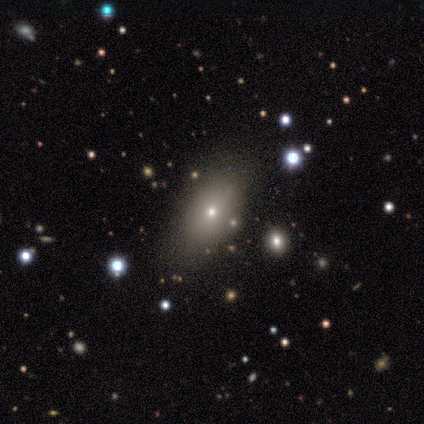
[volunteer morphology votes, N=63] Q: Smooth or featured?
A: smooth (70%); runner-up: featured or disk (16%)
Q: How rounded?
A: in between (75%); runner-up: round (20%)
Q: Merging?
A: none (59%); runner-up: merger (7%)